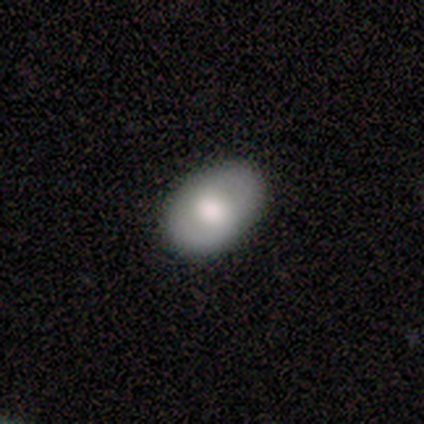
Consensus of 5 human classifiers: Volunteers were most divided on "smooth or featured": smooth: 60%, featured or disk: 40%, star or artifact: 0%. More confident: how rounded — in between (100%); merging — none (80%).